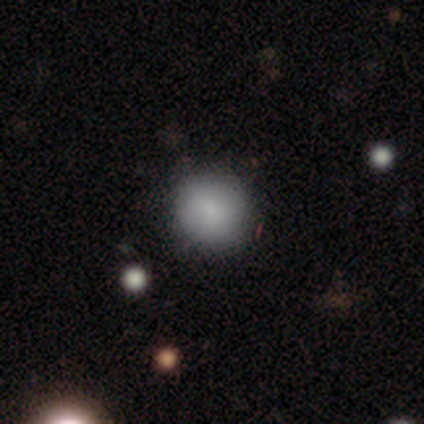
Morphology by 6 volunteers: Smooth or featured: smooth — 50% (star or artifact — 33%)
How rounded: round — 100%
Merging: none — 75% (major disturbance — 25%)